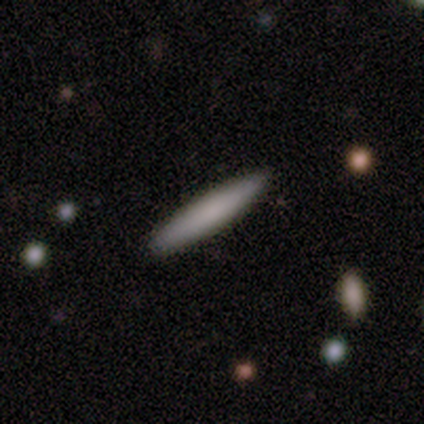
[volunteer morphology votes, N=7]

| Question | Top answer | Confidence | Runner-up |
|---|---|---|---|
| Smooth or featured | smooth | 71% | featured or disk (29%) |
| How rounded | cigar-shaped | 100% | — |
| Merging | none | 100% | — |